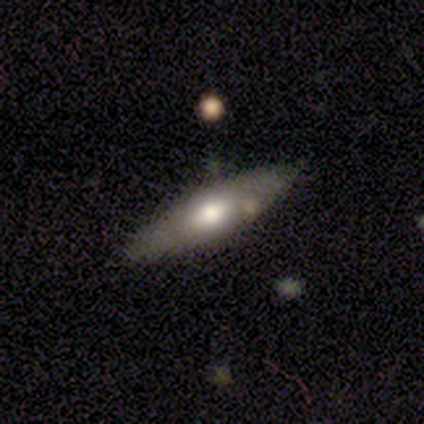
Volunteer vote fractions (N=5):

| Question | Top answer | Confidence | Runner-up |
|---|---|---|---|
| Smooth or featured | featured or disk | 60% | smooth (20%) |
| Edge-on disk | no | 100% | — |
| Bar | no | 67% | strong (33%) |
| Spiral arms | no | 100% | — |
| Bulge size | moderate | 67% | large (33%) |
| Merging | none | 75% | minor disturbance (25%) |